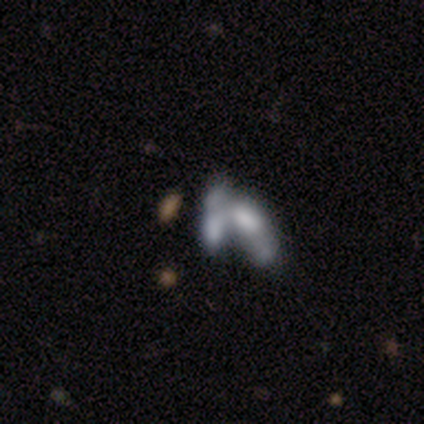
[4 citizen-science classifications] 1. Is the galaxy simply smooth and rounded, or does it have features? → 75% featured or disk, 25% smooth, 0% star or artifact.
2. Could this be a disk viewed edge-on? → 100% no, 0% yes.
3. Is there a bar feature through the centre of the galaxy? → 100% no, 0% strong, 0% weak.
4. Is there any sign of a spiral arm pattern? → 100% no, 0% yes.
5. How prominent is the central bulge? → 67% none, 33% small, 0% dominant, 0% large, 0% moderate.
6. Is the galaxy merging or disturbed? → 50% major disturbance (tied), 50% merger (tied), 0% none, 0% minor disturbance.